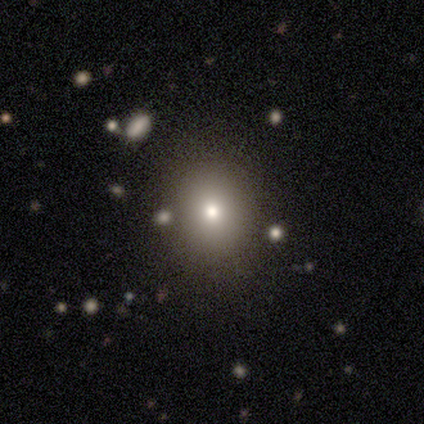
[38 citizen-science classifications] This appears to be a smooth galaxy with no disk features (76%) that is round (72%). Merging: none (74%).